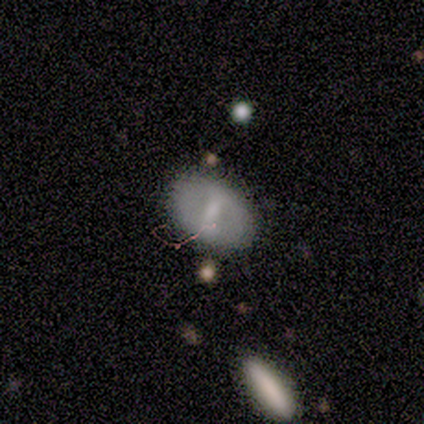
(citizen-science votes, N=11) smooth_or_featured: smooth (p=0.64) [alt: featured or disk p=0.36]
how_rounded: in between (p=0.57) [alt: round p=0.43]
merging: none (p=0.91) [alt: minor disturbance p=0.09]